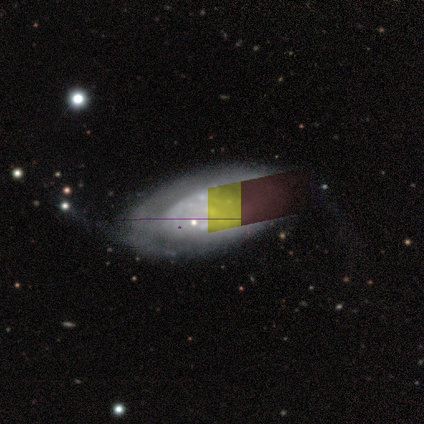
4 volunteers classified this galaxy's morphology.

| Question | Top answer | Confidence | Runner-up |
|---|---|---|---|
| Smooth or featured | smooth | 100% | — |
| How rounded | in between | 75% | round (25%) |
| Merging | none | 25% | tied: minor disturbance (25%), major disturbance (25%), merger (25%) |